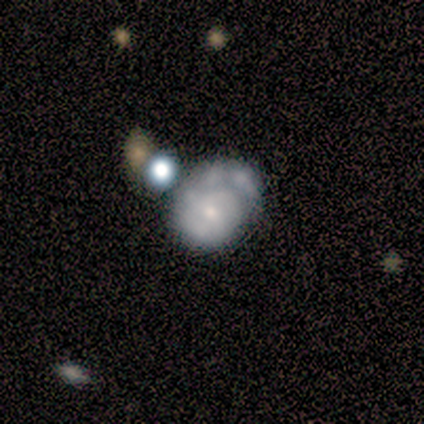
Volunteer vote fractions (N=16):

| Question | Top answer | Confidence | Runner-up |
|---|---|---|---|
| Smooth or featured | featured or disk | 69% | star or artifact (19%) |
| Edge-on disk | no | 100% | — |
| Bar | no | 73% | weak (27%) |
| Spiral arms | yes | 73% | no (27%) |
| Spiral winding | tight | 50% | medium (38%) |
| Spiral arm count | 1 | 38% | tied: 2 (38%) |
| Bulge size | small | 73% | moderate (27%) |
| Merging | none | 77% | major disturbance (15%) |